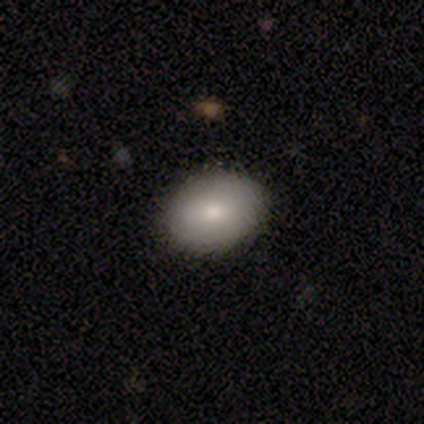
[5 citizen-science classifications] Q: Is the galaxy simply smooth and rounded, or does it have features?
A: smooth — 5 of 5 (100%).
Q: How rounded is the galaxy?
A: in between — 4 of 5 (80%).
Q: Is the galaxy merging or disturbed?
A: none — 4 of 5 (80%).